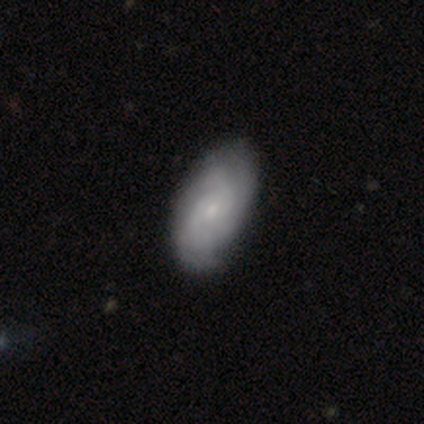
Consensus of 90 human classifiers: A featured or disk galaxy (66%) with no bar (65%), 3 (37%, tied with can't tell) tight (59%) spiral arms (95%) and a small central bulge (79%).

Vote fractions:
- Smooth or featured? featured or disk: 66% / smooth: 30% / star or artifact: 4%
- Edge-on disk? no: 97% / yes: 3%
- Bar? no: 65% / weak: 35% / strong: 0%
- Spiral arms? yes: 95% / no: 5%
- Spiral winding? tight: 59% / medium: 30% / loose: 11%
- Spiral arm count? 3: 37% (tied) / can't tell: 37% (tied) / 2: 19% / 4: 6% / 1: 2% / more than 4: 0%
- Bulge size? small: 79% / moderate: 12% / none: 7% / dominant: 2% / large: 0%
- Merging? none: 76% / minor disturbance: 24% / major disturbance: 0% / merger: 0%